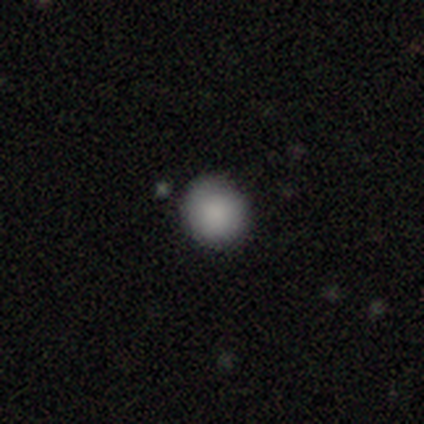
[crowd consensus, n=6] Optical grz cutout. It shows a smooth galaxy with no disk features (83%) that is round (100%). Merging: none (100%).